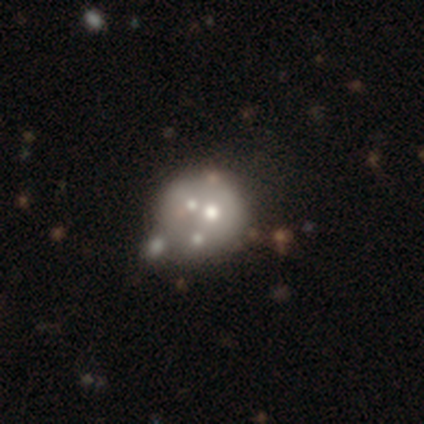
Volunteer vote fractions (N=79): Smooth or featured? featured or disk (56%)
Edge-on disk? no (100%)
Bar? no (98%)
Spiral arms? no (98%)
Bulge size? moderate (48%)
Merging? merger (44%)